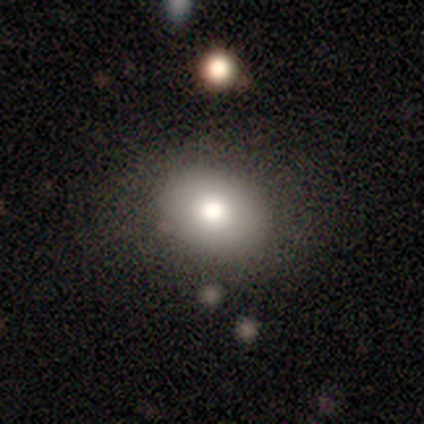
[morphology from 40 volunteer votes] A smooth galaxy with no disk features (72%) that is in between round and cigar-shaped (66%).

Vote fractions:
- Smooth or featured? smooth: 72% / star or artifact: 18% / featured or disk: 10%
- How rounded? in between: 66% / round: 31% / cigar-shaped: 3%
- Merging? none: 73% / major disturbance: 12% / minor disturbance: 9% / merger: 6%